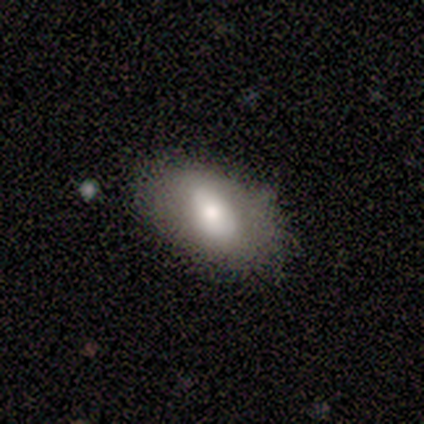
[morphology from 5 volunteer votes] smooth_or_featured: smooth (p=0.80) [alt: featured or disk p=0.20]
how_rounded: in between (p=1.00)
merging: none (p=0.80) [alt: major disturbance p=0.20]